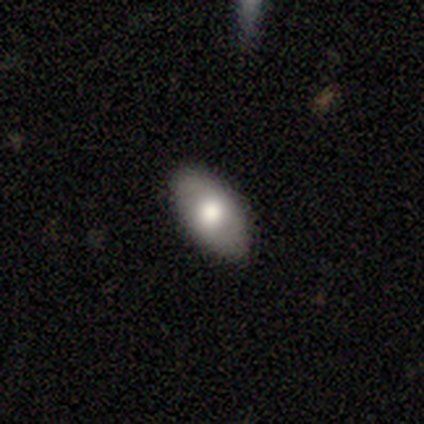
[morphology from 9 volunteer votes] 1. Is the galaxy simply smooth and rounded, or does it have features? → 67% smooth, 22% featured or disk, 11% star or artifact.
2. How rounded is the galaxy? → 67% in between, 33% round, 0% cigar-shaped.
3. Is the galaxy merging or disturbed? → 100% none, 0% minor disturbance, 0% major disturbance, 0% merger.